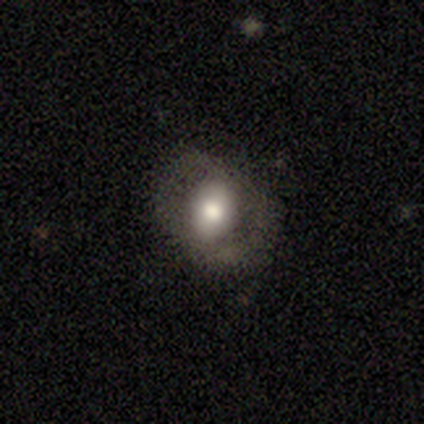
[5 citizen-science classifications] smooth_or_featured: smooth (p=0.60) [alt: featured or disk p=0.20]
how_rounded: in between (p=1.00)
merging: none (p=0.75) [alt: minor disturbance p=0.25]